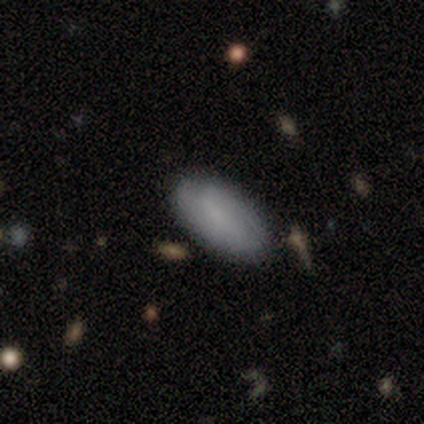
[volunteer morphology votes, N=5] smooth 100%, featured or disk 0%, star or artifact 0%. Down the decision tree: how rounded — in between (100%); merging — none (60%).